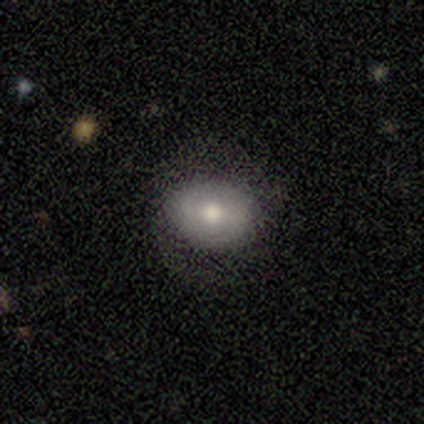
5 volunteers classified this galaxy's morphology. smooth-or-featured: smooth: 100% | featured or disk: 0% | star or artifact: 0%
  how-rounded: in between: 60% | round: 40% | cigar-shaped: 0%
  merging: none: 100% | minor disturbance: 0% | major disturbance: 0% | merger: 0%